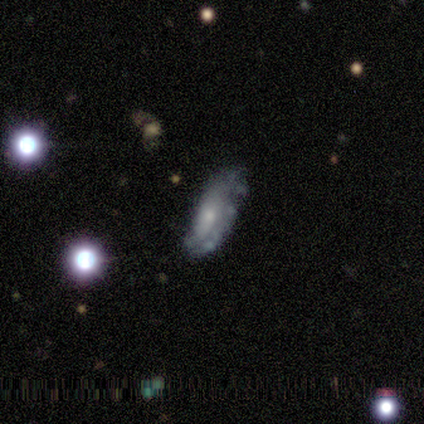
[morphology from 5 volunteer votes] featured or disk 40% (tied), star or artifact 40% (tied), smooth 20%. Down the decision tree: edge-on disk — no (100%); bar — no (100%); spiral arms — yes (100%); spiral arm count — 2 (100%); spiral winding — medium (50%, tied with loose); bulge size — small (100%); merging — none (67%).